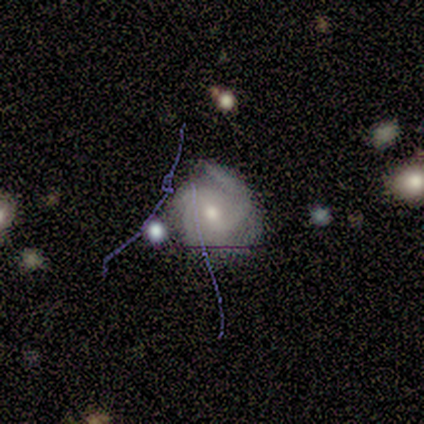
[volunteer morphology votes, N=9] This is clearly a featured or disk galaxy (89%). It is clearly not viewed edge-on (100%). Bar: possibly weak (50%, tied with no). Spiral arm pattern: clearly yes (100%). Spiral arm count: marginally 4 (38%). Spiral winding: likely tight (62%). Central bulge: possibly moderate (50%, tied with small). Merging: likely none (78%).